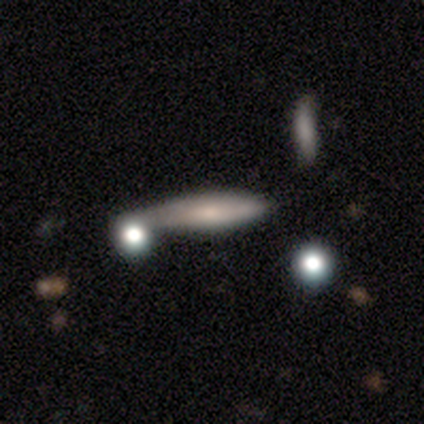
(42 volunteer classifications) Q: Smooth or featured?
A: smooth (62%); runner-up: featured or disk (33%)
Q: How rounded?
A: cigar-shaped (85%); runner-up: in between (15%)
Q: Merging?
A: none (40%); runner-up: merger (32%)